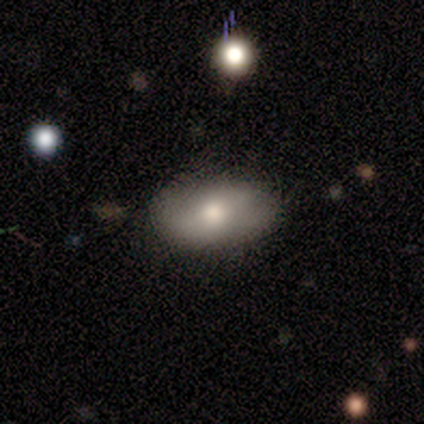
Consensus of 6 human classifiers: smooth_or_featured: smooth (p=0.50) [tied with: featured or disk p=0.50]
how_rounded: in between (p=1.00)
merging: none (p=0.83) [alt: major disturbance p=0.17]